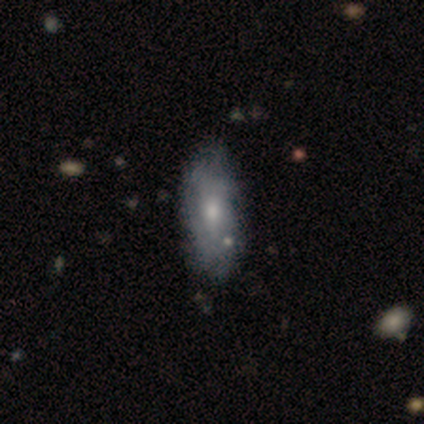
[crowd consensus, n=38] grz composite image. It shows a featured or disk galaxy (50%) with no bar (84%), no spiral arms (74%) and a small central bulge (53%). Merging: none (50%).